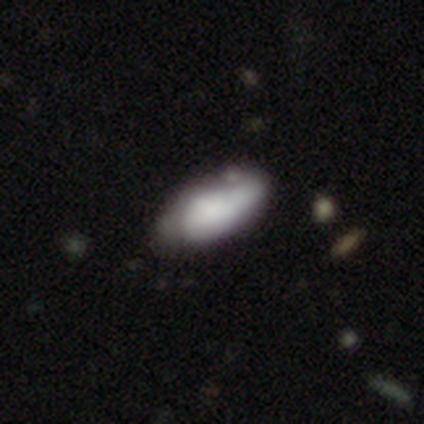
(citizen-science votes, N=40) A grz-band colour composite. It shows a smooth galaxy with no disk features (62%) that is in between round and cigar-shaped (96%). Merging: minor disturbance (38%).